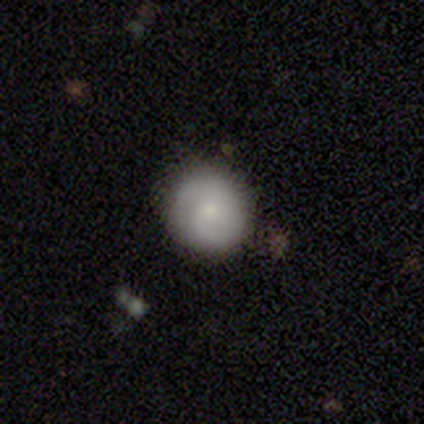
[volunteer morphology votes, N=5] Q: Smooth or featured?
A: smooth (100%)
Q: How rounded?
A: round (100%)
Q: Merging?
A: none (100%)